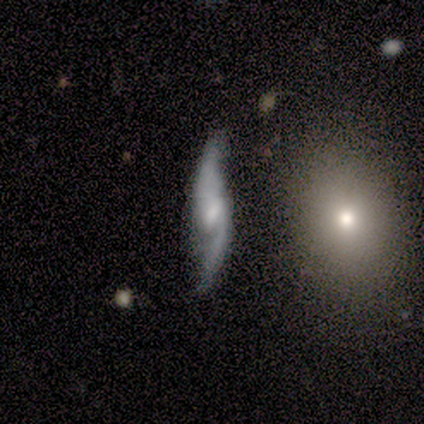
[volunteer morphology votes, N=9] featured or disk 89%, smooth 11%, star or artifact 0%. Down the decision tree: edge-on disk — no (88%); bar — weak (71%); spiral arms — yes (100%); spiral arm count — 2 (86%); spiral winding — loose (71%); bulge size — moderate (43%, tied with small); merging — none (67%).